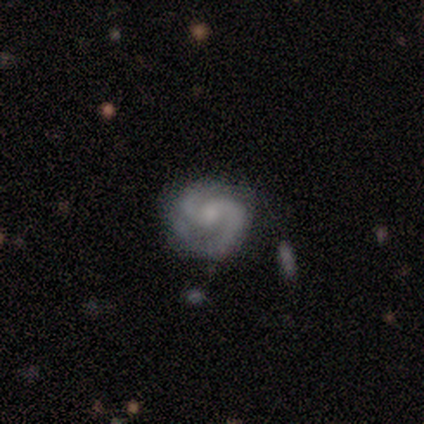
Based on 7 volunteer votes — featured or disk 100%, smooth 0%, star or artifact 0%. Down the decision tree: edge-on disk — no (86%); bar — no (100%); spiral arms — yes (100%); spiral arm count — 2 (100%); spiral winding — medium (83%); bulge size — moderate (50%); merging — none (43%).